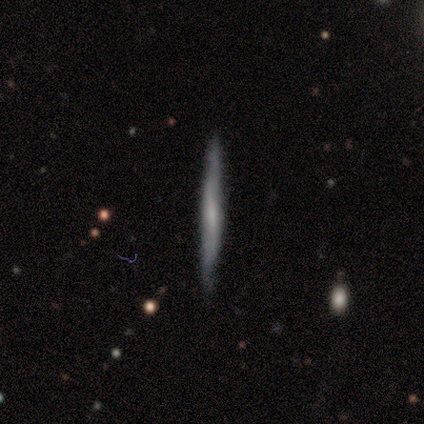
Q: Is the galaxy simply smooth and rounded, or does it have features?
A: featured or disk — 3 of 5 (60%).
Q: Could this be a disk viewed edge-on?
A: yes — 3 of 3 (100%).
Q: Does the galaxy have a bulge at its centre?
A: none — 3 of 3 (100%).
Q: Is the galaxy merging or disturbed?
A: none — 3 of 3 (100%).